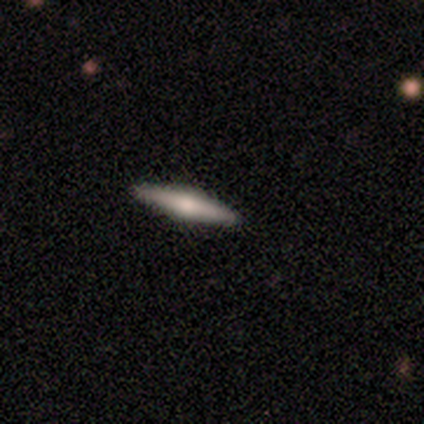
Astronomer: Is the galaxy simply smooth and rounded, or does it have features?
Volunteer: smooth — 75%.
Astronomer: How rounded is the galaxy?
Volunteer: cigar-shaped — 100%.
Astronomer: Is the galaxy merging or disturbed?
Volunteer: none — 100%.